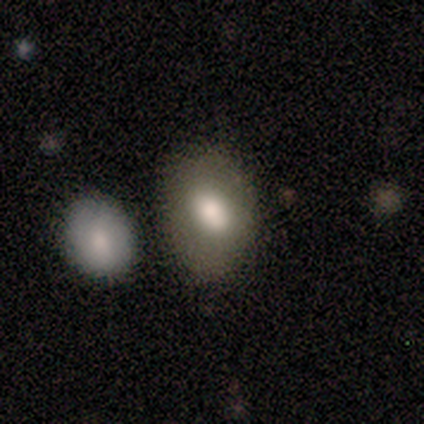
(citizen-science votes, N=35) Smooth or featured: smooth — 74% (featured or disk — 14%)
How rounded: in between — 81% (round — 19%)
Merging: none — 68% (minor disturbance — 13%)